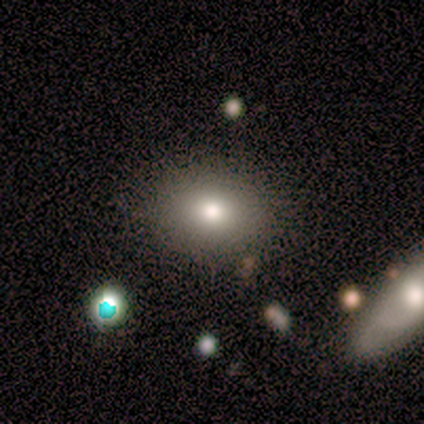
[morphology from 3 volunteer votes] smooth-or-featured: smooth: 100% | featured or disk: 0% | star or artifact: 0%
  how-rounded: in between: 67% | round: 33% | cigar-shaped: 0%
  merging: none: 100% | minor disturbance: 0% | major disturbance: 0% | merger: 0%